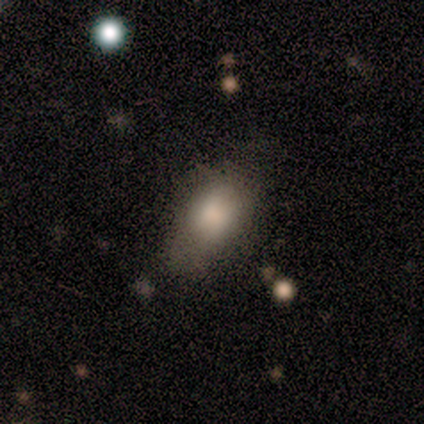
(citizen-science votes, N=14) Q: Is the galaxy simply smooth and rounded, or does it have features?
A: smooth — 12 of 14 (86%).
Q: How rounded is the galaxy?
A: in between — 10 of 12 (83%).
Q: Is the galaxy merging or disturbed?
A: none — 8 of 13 (62%).